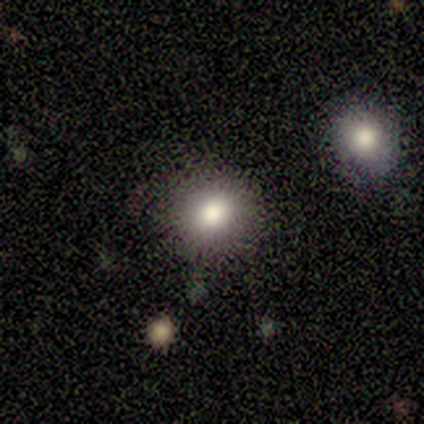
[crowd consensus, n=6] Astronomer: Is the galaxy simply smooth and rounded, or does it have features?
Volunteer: smooth — 83%.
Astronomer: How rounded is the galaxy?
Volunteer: round — 100%.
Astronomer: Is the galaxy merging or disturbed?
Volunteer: none — 67%.